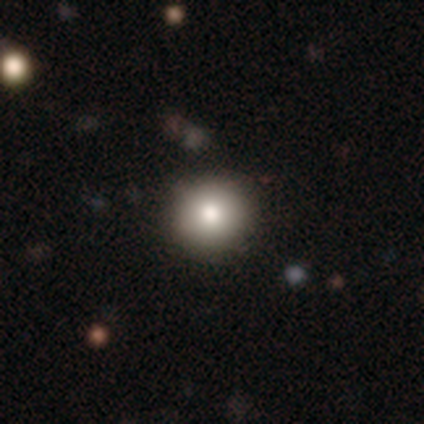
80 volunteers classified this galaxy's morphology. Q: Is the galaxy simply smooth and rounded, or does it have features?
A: smooth — 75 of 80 (94%).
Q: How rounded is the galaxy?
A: round — 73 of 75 (97%).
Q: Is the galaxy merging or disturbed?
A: none — 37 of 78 (47%).